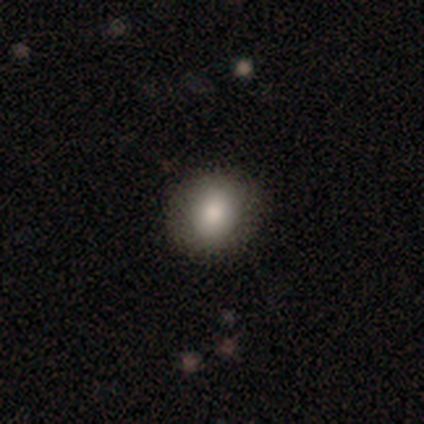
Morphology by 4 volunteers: smooth-or-featured: smooth: 75% | featured or disk: 25% | star or artifact: 0%
  how-rounded: round: 67% | in between: 33% | cigar-shaped: 0%
  merging: none: 100% | minor disturbance: 0% | major disturbance: 0% | merger: 0%